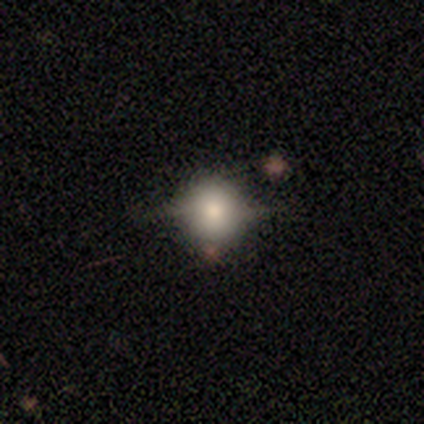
Morphology: type=smooth (50%); roundness=round (79%); merging=none (53%).